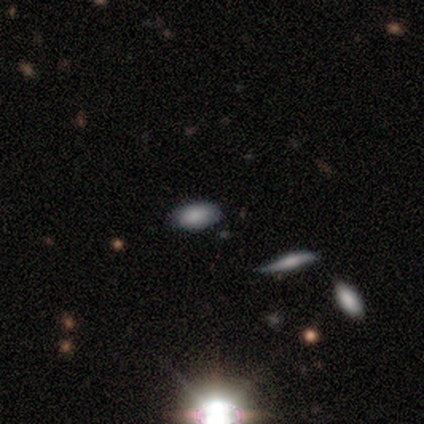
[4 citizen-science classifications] Smooth or featured: smooth — 100%
How rounded: in between — 100%
Merging: none — 100%